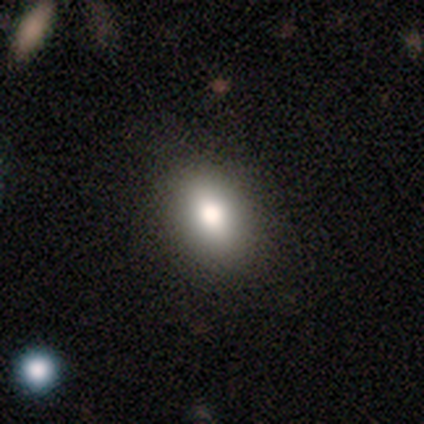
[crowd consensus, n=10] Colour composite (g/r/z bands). It shows a smooth galaxy with no disk features (100%) that is in between round and cigar-shaped (70%). Merging: none (80%).